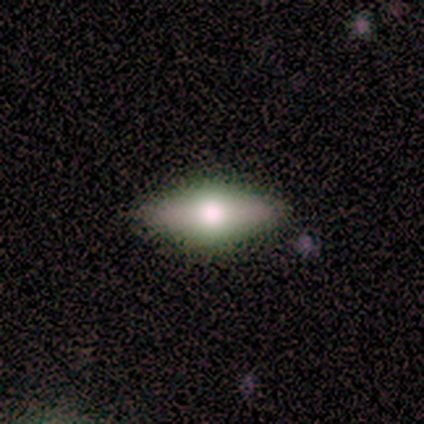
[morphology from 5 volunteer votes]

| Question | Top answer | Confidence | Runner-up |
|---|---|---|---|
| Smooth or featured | featured or disk | 60% | smooth (40%) |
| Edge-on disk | yes | 67% | no (33%) |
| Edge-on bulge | rounded | 100% | — |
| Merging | none | 100% | — |